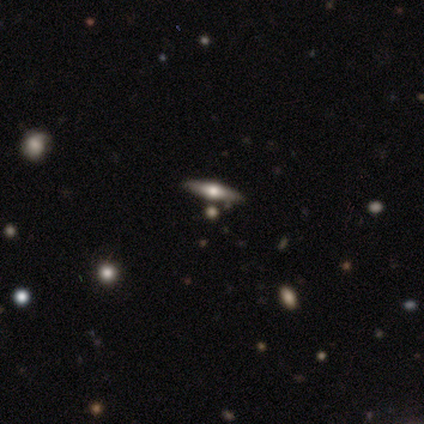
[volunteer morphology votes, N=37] This appears to be a featured or disk galaxy (62%) viewed edge-on (91%) with a rounded central bulge (95%). Merging: none (79%).